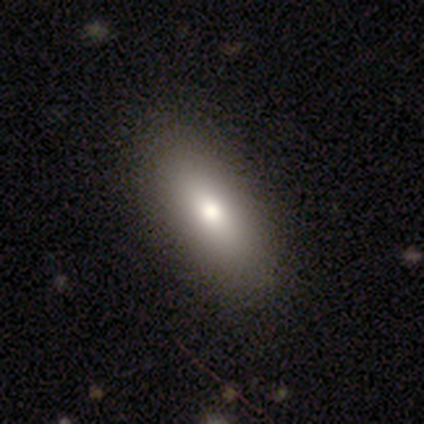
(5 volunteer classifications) A smooth galaxy with no disk features (100%) that is in between round and cigar-shaped (60%). Merging: none (80%).